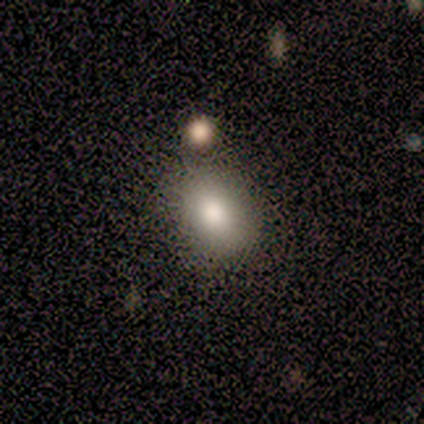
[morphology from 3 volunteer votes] Q: Smooth or featured?
A: smooth (67%); runner-up: featured or disk (33%)
Q: How rounded?
A: round (100%)
Q: Merging?
A: none (100%)